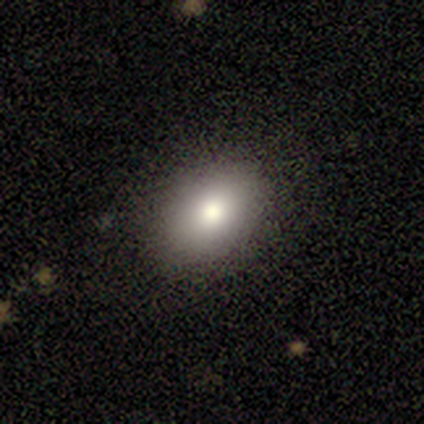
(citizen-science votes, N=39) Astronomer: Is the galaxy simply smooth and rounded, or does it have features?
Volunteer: smooth — 79%.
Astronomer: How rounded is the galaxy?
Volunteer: round — 55% (runner-up: in between, 45%).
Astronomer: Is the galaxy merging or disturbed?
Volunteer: none — 83%.